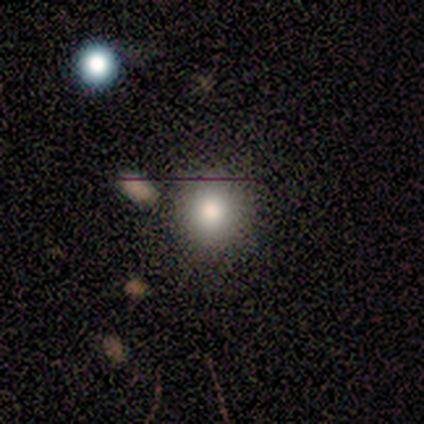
smooth_or_featured: smooth (p=1.00)
how_rounded: round (p=1.00)
merging: none (p=0.67) [alt: minor disturbance p=0.17]